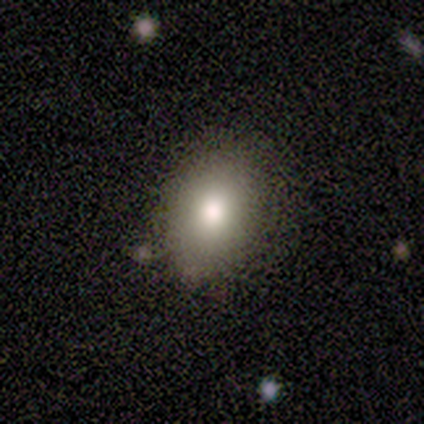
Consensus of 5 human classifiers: This appears to be a smooth galaxy with no disk features (80%) that is round (50%, tied with in between). Merging: none (60%).